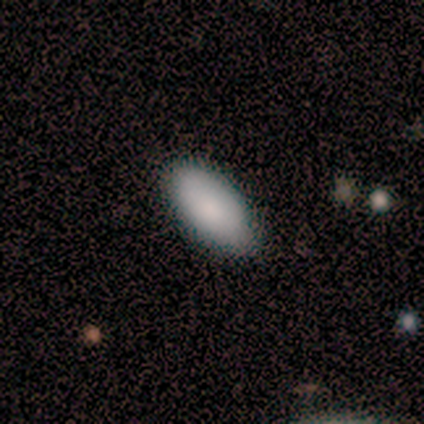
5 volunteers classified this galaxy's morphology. Overall: smooth (80%). How rounded: in between (100%). Merging: none (100%).